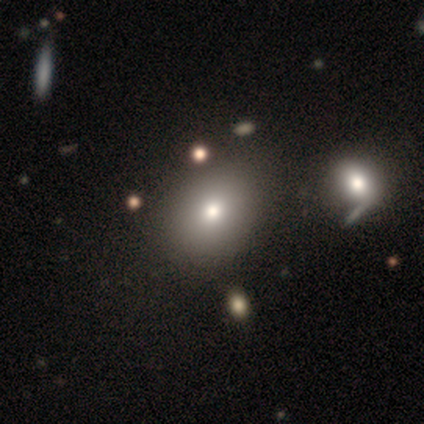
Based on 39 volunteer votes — This is clearly a smooth galaxy (87%). How rounded: possibly in between (56%). Merging: possibly none (59%).